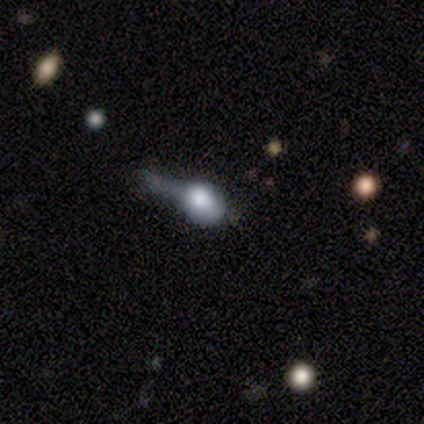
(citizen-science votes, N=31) Q: Smooth or featured?
A: smooth (52%); runner-up: featured or disk (29%)
Q: How rounded?
A: in between (62%); runner-up: round (31%)
Q: Merging?
A: major disturbance (52%); runner-up: none (24%)